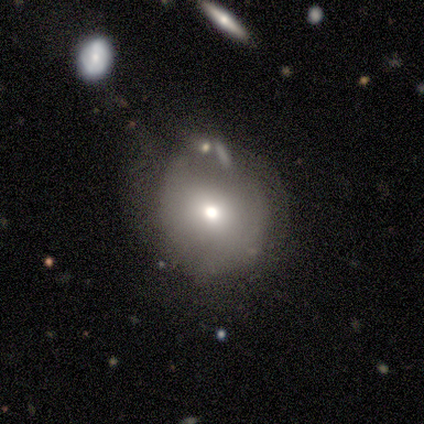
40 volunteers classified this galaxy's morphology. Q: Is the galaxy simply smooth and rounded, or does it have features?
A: smooth — 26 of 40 (65%).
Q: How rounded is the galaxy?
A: round — 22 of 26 (85%).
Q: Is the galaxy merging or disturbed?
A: none — 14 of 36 (39%).